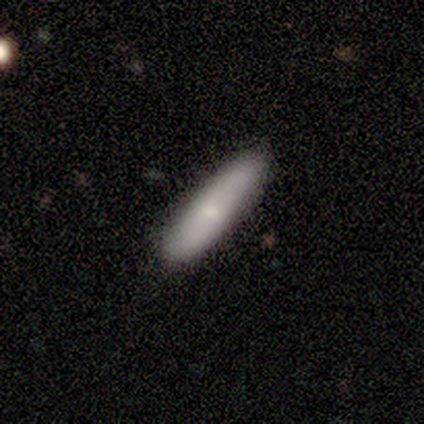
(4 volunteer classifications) This appears to be a smooth galaxy with no disk features (75%) that is cigar-shaped (100%). Merging: none (100%).